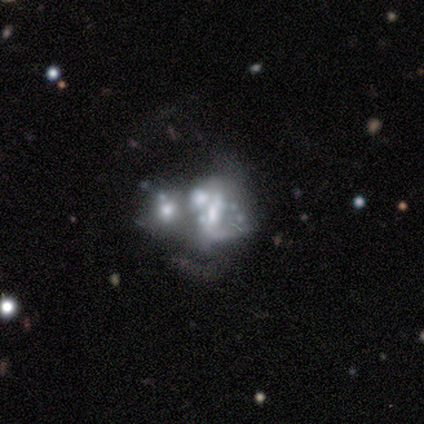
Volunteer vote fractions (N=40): This appears to be a featured or disk galaxy (78%) with no bar (83%), no spiral arms (90%) and no central bulge (37%). Merging: merger (63%).